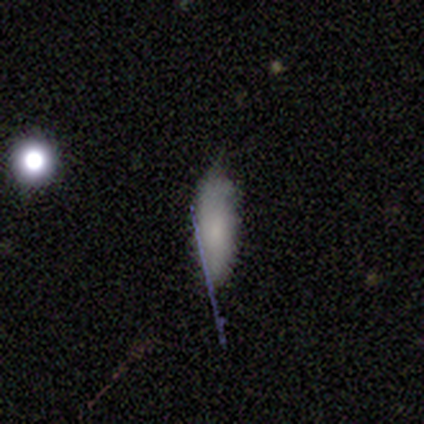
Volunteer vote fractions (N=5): A smooth galaxy with no disk features (60%) that is in between round and cigar-shaped (100%). Merging: minor disturbance (75%).